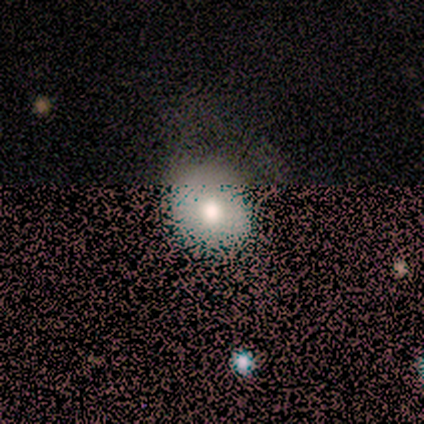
A smooth galaxy with no disk features (67%) that is round (100%).

Vote fractions:
- Smooth or featured? smooth: 67% / star or artifact: 22% / featured or disk: 11%
- How rounded? round: 100% / in between: 0% / cigar-shaped: 0%
- Merging? none: 57% / major disturbance: 43% / minor disturbance: 0% / merger: 0%